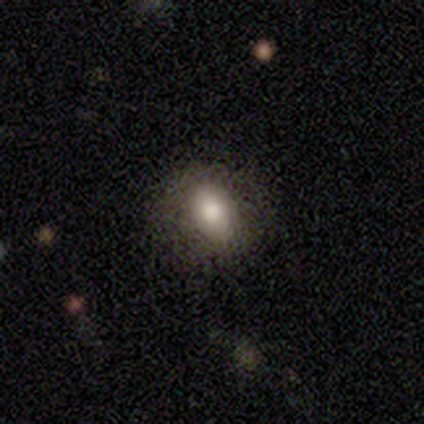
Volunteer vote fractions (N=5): Morphology: type=smooth (40%, tied with featured or disk); roundness=in between (100%); merging=none (100%).